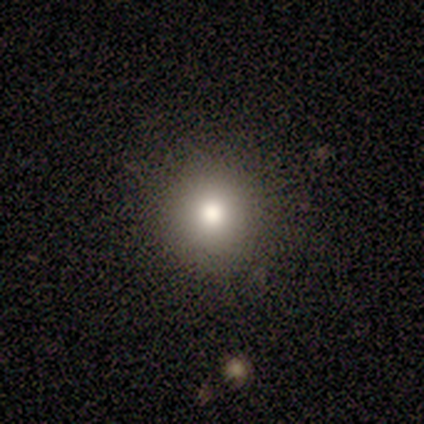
Q: Smooth or featured?
A: smooth (60%); runner-up: star or artifact (40%)
Q: How rounded?
A: round (100%)
Q: Merging?
A: none (100%)